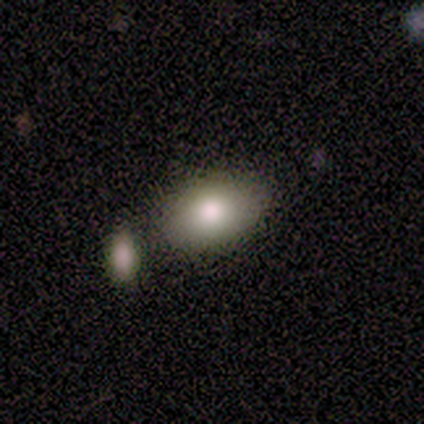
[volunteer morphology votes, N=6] Smooth or featured?
  - smooth: 100% *
  - featured or disk: 0%
  - star or artifact: 0%
How rounded?
  - in between: 100% *
  - round: 0%
  - cigar-shaped: 0%
Merging?
  - none: 67% *
  - minor disturbance: 17%
  - major disturbance: 17%
  - merger: 0%